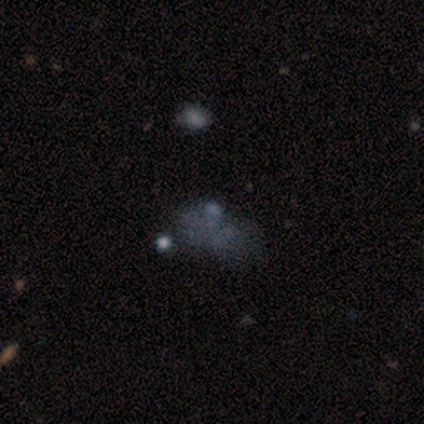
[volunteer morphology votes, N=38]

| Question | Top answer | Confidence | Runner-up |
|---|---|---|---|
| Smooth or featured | smooth | 42% | featured or disk (37%) |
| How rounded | in between | 81% | round (19%) |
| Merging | none | 50% | major disturbance (23%) |